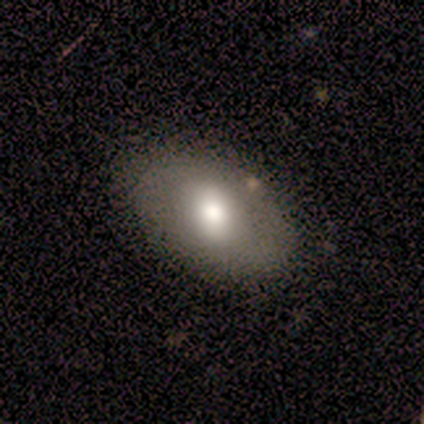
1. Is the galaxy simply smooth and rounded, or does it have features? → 80% smooth, 20% featured or disk, 0% star or artifact.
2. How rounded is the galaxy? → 75% in between, 25% round, 0% cigar-shaped.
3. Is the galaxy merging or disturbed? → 100% none, 0% minor disturbance, 0% major disturbance, 0% merger.